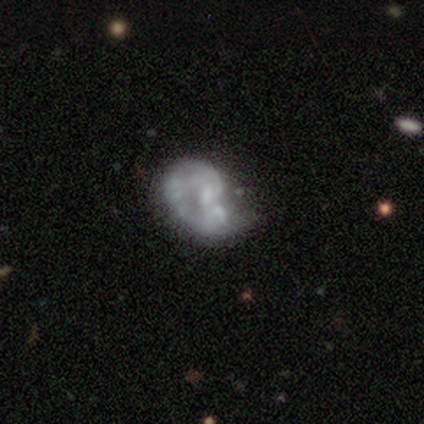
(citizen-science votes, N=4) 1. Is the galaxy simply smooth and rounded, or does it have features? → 75% featured or disk, 25% star or artifact, 0% smooth.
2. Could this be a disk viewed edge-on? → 100% no, 0% yes.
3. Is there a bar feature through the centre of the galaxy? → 67% no, 33% weak, 0% strong.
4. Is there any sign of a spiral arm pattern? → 67% no, 33% yes.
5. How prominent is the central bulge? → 33% moderate (tied), 33% small (tied), 33% none (tied), 0% dominant, 0% large.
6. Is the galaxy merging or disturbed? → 33% minor disturbance (tied), 33% major disturbance (tied), 33% merger (tied), 0% none.